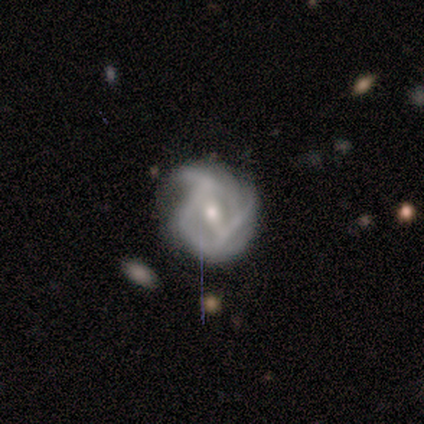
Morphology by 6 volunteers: A featured or disk galaxy (100%) with a weak bar (100%), medium (80%) spiral arms (100%) and a small central bulge (60%).

Vote fractions:
- Smooth or featured? featured or disk: 100% / smooth: 0% / star or artifact: 0%
- Edge-on disk? no: 83% / yes: 17%
- Bar? weak: 100% / strong: 0% / no: 0%
- Spiral arms? yes: 100% / no: 0%
- Spiral winding? medium: 80% / tight: 20% / loose: 0%
- Spiral arm count? can't tell: 60% / 2: 20% / 4: 20% / 1: 0% / 3: 0% / more than 4: 0%
- Bulge size? small: 60% / moderate: 40% / dominant: 0% / large: 0% / none: 0%
- Merging? none: 67% / minor disturbance: 33% / major disturbance: 0% / merger: 0%